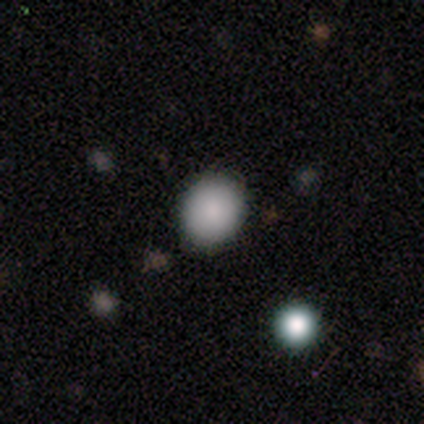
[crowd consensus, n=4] Q: Smooth or featured?
A: smooth (100%)
Q: How rounded?
A: round (100%)
Q: Merging?
A: none (75%); runner-up: minor disturbance (25%)